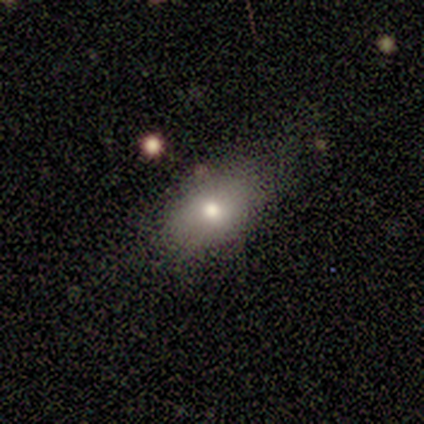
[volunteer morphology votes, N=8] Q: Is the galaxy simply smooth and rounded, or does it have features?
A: smooth — 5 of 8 (62%).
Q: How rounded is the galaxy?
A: in between — 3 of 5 (60%).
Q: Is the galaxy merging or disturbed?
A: none — 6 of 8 (75%).